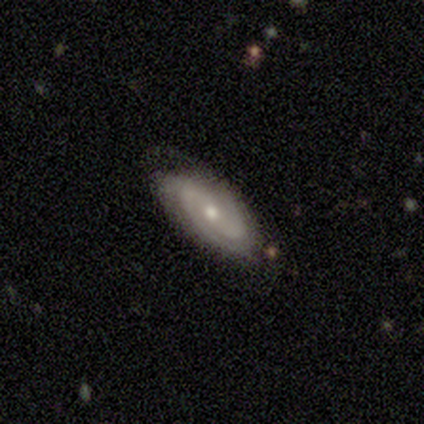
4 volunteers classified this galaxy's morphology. Overall: featured or disk (75%). Edge-on disk: no (100%). Bar: no (67%; strong 33%). Spiral arms: yes (100%). Spiral arm count: 2 (100%). Spiral winding: medium (100%). Bulge size: moderate (67%; small 33%). Merging: none (100%).